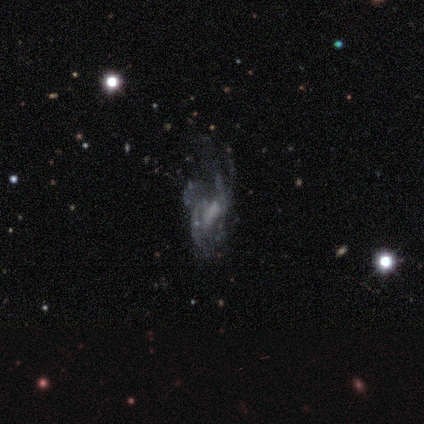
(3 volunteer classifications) A smooth galaxy with no disk features (67%) that is in between round and cigar-shaped (100%).

Vote fractions:
- Smooth or featured? smooth: 67% / featured or disk: 33% / star or artifact: 0%
- How rounded? in between: 100% / round: 0% / cigar-shaped: 0%
- Merging? major disturbance: 67% / none: 33% / minor disturbance: 0% / merger: 0%